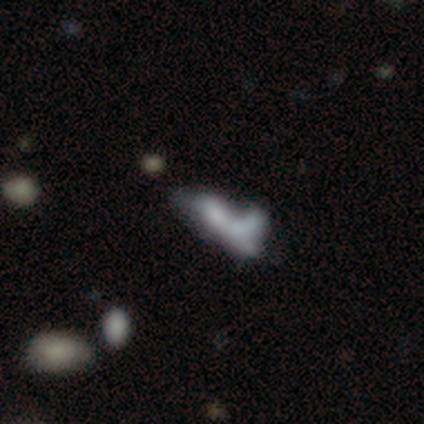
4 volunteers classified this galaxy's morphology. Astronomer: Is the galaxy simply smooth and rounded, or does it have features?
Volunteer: smooth — 75%.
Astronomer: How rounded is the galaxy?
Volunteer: in between — 100%.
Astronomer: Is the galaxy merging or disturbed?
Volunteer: merger — 75%.